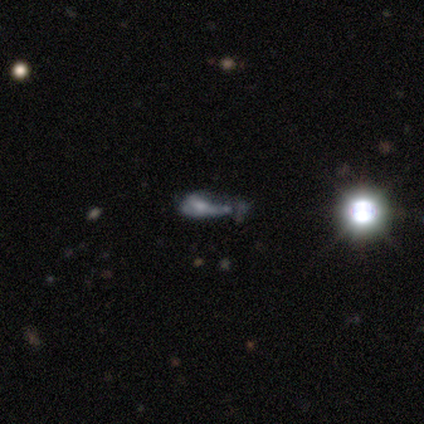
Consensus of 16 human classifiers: This appears to be a featured or disk galaxy (44%) with no bar (100%), no spiral arms (80%) and a moderate central bulge (40%, tied with small). Merging: none (36%).